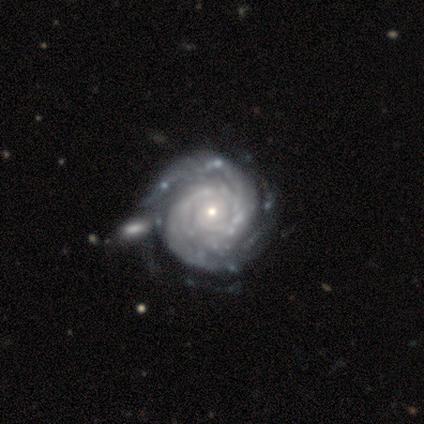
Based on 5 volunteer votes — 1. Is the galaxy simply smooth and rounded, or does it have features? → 80% featured or disk, 20% star or artifact, 0% smooth.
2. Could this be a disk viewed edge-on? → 100% no, 0% yes.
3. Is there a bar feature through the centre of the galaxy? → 100% no, 0% strong, 0% weak.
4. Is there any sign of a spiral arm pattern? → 100% yes, 0% no.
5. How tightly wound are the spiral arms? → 100% tight, 0% medium, 0% loose.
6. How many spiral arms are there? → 50% can't tell, 25% 2, 25% 3, 0% 1, 0% 4, 0% more than 4.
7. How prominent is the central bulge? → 75% small, 25% moderate, 0% dominant, 0% large, 0% none.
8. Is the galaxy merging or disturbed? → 75% none, 25% minor disturbance, 0% major disturbance, 0% merger.